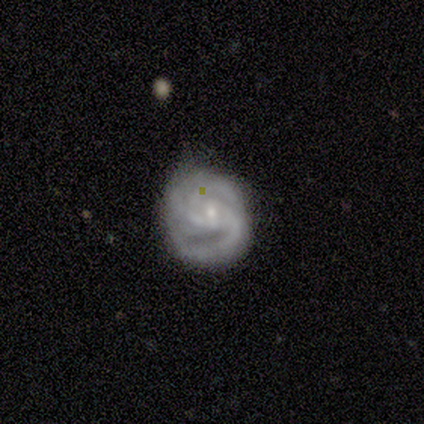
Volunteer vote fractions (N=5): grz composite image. It shows a featured or disk galaxy (100%) with no bar (60%), 2 (60%) medium (60%) spiral arms (100%) and a small central bulge (80%). Merging: none (80%).